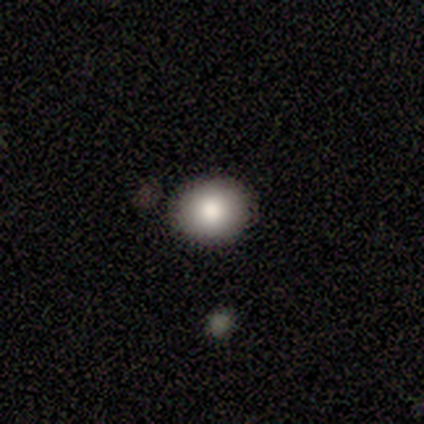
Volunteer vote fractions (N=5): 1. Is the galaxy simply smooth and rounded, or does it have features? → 100% smooth, 0% featured or disk, 0% star or artifact.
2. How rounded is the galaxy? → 80% round, 20% in between, 0% cigar-shaped.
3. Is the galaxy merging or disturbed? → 80% none, 20% minor disturbance, 0% major disturbance, 0% merger.